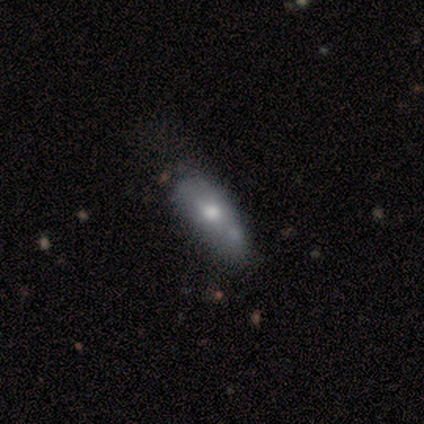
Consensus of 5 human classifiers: A smooth galaxy with no disk features (100%) that is in between round and cigar-shaped (60%). Merging: none (40%, tied with merger).